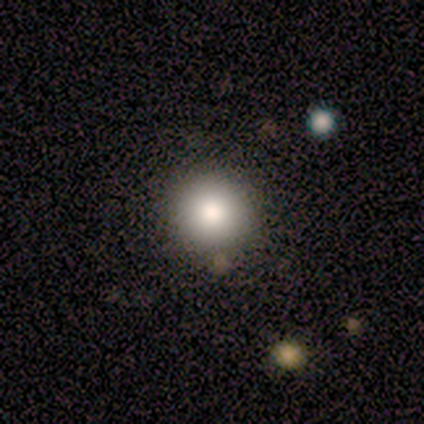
A smooth galaxy with no disk features (80%) that is round (100%).

Vote fractions:
- Smooth or featured? smooth: 80% / featured or disk: 20% / star or artifact: 0%
- How rounded? round: 100% / in between: 0% / cigar-shaped: 0%
- Merging? none: 100% / minor disturbance: 0% / major disturbance: 0% / merger: 0%